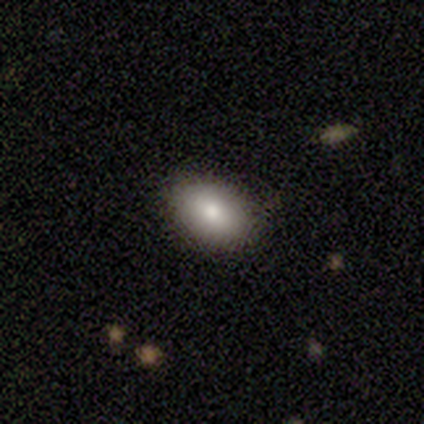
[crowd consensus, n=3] Smooth or featured? smooth (100%)
How rounded? in between (100%)
Merging? none (100%)